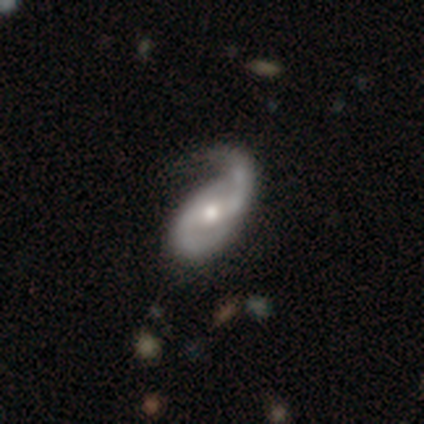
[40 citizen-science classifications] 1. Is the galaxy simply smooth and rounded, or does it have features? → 85% featured or disk, 8% smooth, 8% star or artifact.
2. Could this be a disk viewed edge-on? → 97% no, 3% yes.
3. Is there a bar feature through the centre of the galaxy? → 52% weak, 33% no, 15% strong.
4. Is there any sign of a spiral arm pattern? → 94% yes, 6% no.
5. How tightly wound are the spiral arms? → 48% medium, 42% loose, 10% tight.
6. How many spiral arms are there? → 77% 2, 13% can't tell, 10% 1, 0% 3, 0% 4, 0% more than 4.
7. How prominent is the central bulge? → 73% moderate, 21% small, 3% dominant, 3% large, 0% none.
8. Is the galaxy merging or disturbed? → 51% none, 32% minor disturbance, 16% major disturbance, 0% merger.